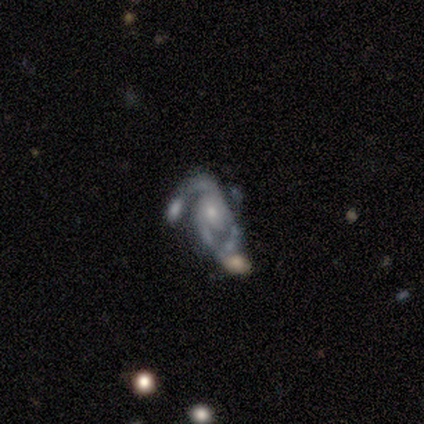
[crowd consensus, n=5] smooth-or-featured: featured or disk: 60% | star or artifact: 40% | smooth: 0%
  disk-edge-on: no: 100% | yes: 0%
    bar: no: 100% | strong: 0% | weak: 0%
    has-spiral-arms: yes: 100% | no: 0%
      spiral-winding: medium: 100% | tight: 0% | loose: 0%
      spiral-arm-count: can't tell: 67% | 2: 33% | 1: 0% | 3: 0% | 4: 0% | more than 4: 0%
    bulge-size: moderate: 67% | small: 33% | dominant: 0% | large: 0% | none: 0%
  merging: minor disturbance: 67% | major disturbance: 33% | none: 0% | merger: 0%